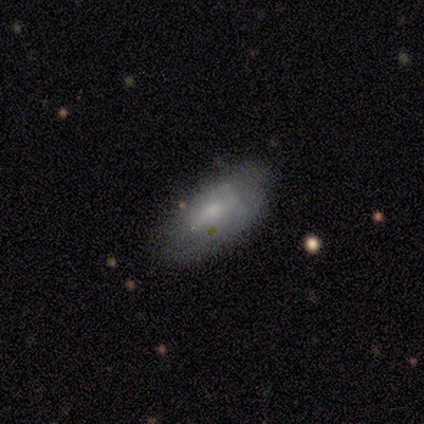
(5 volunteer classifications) Q: Smooth or featured?
A: featured or disk (60%); runner-up: smooth (40%)
Q: Edge-on disk?
A: no (100%)
Q: Bar?
A: no (100%)
Q: Spiral arms?
A: no (100%)
Q: Bulge size?
A: small (67%); runner-up: moderate (33%)
Q: Merging?
A: none (60%); runner-up: minor disturbance (40%)